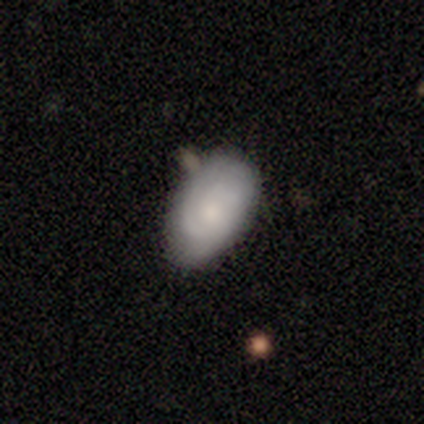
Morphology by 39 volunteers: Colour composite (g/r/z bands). It shows a smooth galaxy with no disk features (51%) that is in between round and cigar-shaped (85%). Merging: none (49%).